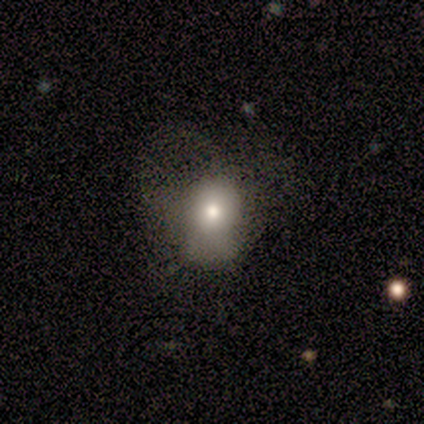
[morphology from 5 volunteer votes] A star or artifact, not a galaxy (60%).

Vote fractions:
- Smooth or featured? star or artifact: 60% / smooth: 20% / featured or disk: 20%